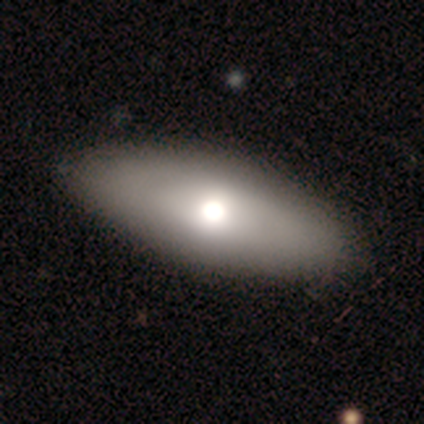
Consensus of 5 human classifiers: This is marginally a smooth galaxy (40%, tied with featured or disk). How rounded: clearly in between (100%). Merging: clearly none (100%).